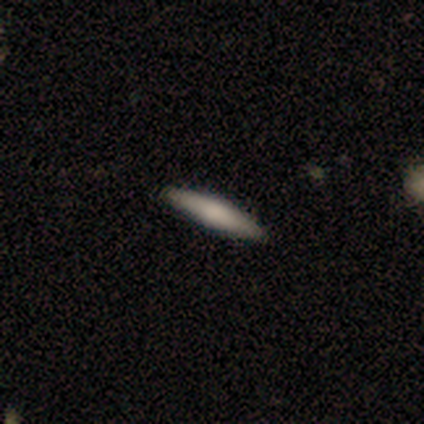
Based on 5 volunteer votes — A smooth galaxy with no disk features (80%) that is cigar-shaped (100%).

Vote fractions:
- Smooth or featured? smooth: 80% / featured or disk: 20% / star or artifact: 0%
- How rounded? cigar-shaped: 100% / round: 0% / in between: 0%
- Merging? none: 100% / minor disturbance: 0% / major disturbance: 0% / merger: 0%